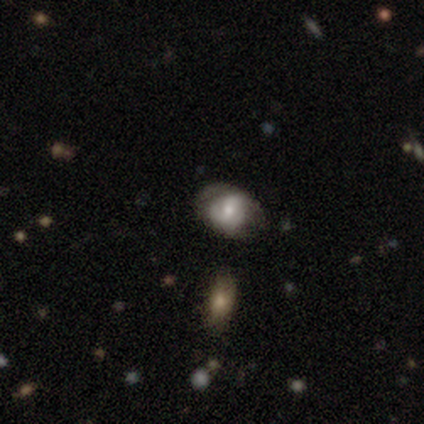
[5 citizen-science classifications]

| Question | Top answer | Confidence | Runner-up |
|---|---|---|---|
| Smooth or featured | featured or disk | 60% | smooth (40%) |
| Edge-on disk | no | 100% | — |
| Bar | no | 67% | weak (33%) |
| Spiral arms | yes | 67% | no (33%) |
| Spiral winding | medium | 100% | — |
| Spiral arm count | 2 | 50% | tied: can't tell (50%) |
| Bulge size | moderate | 67% | small (33%) |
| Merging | none | 60% | minor disturbance (40%) |